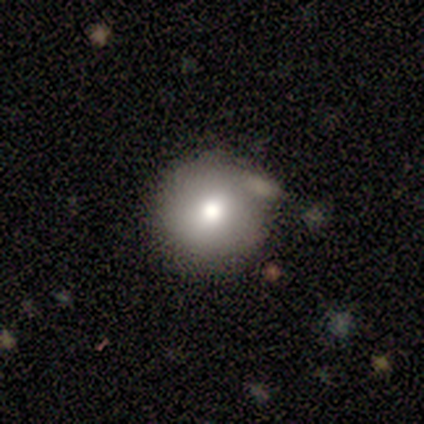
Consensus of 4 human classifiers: Smooth or featured? smooth (100%)
How rounded? round (100%)
Merging? none (50%)